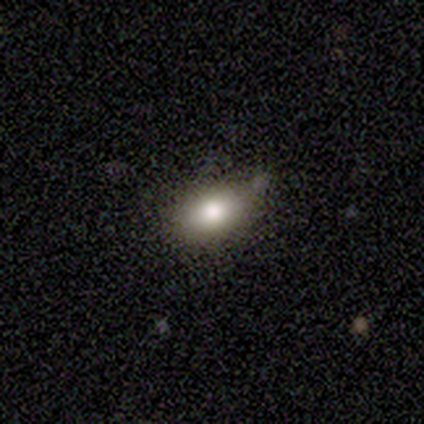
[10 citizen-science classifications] Overall: smooth (70%; featured or disk 30%). How rounded: in between (100%). Merging: none (60%; minor disturbance 40%).